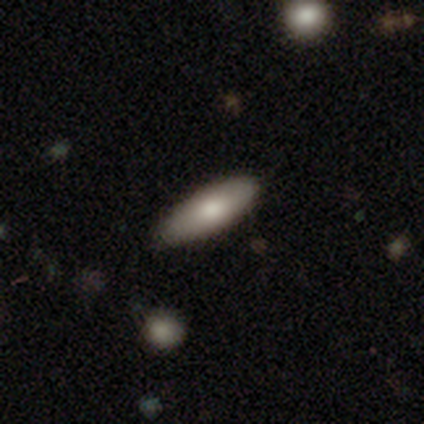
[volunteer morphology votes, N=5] This appears to be a smooth galaxy with no disk features (80%) that is in between round and cigar-shaped (75%). Merging: none (100%).